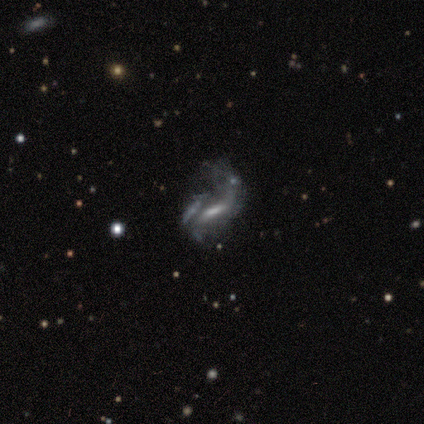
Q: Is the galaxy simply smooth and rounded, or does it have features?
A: featured or disk — 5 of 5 (100%).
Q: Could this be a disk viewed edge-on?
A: no — 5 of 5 (100%).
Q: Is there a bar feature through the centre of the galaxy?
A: strong — 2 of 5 (40%, tied with weak).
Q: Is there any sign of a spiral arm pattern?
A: yes — 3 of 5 (60%).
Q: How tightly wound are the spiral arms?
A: loose — 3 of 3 (100%).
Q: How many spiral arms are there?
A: can't tell — 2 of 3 (67%).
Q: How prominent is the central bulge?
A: small — 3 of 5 (60%).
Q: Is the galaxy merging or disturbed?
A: major disturbance — 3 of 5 (60%).